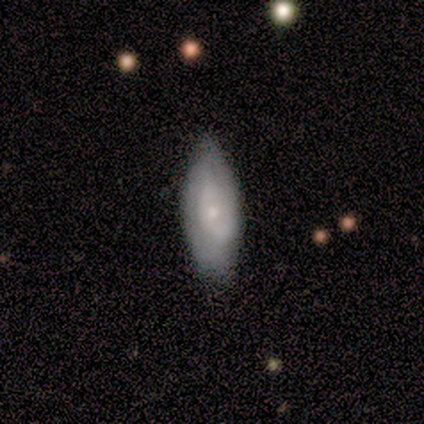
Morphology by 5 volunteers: smooth 80%, featured or disk 20%, star or artifact 0%. Down the decision tree: how rounded — in between (50%, tied with cigar-shaped); merging — minor disturbance (60%).